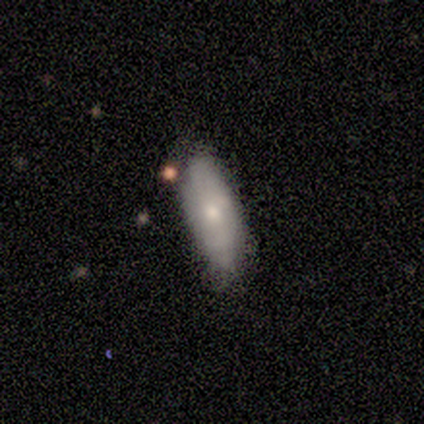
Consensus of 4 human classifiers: Smooth or featured? smooth (50%, tied with featured or disk)
How rounded? in between (50%, tied with cigar-shaped)
Merging? none (100%)